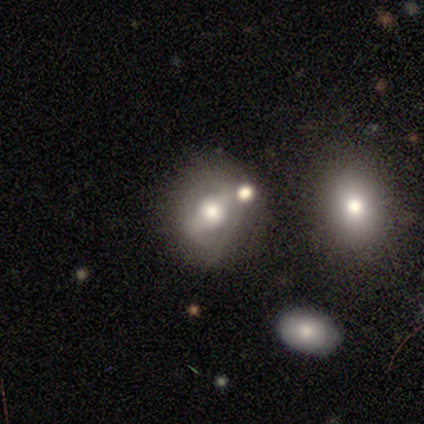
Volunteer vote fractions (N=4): Morphology: type=featured or disk (75%); edge-on=no (100%); bar=strong (67%); spiral arms=yes (67%); winding=tight (50%, tied with loose); arm count=2 (100%); bulge=moderate (100%); merging=none (75%).